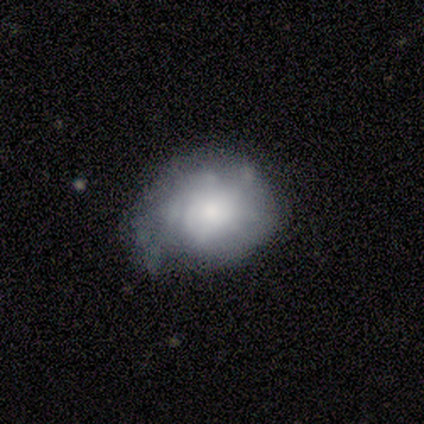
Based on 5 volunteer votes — Smooth or featured? featured or disk (80%)
Edge-on disk? no (100%)
Bar? no (100%)
Spiral arms? yes (50%, tied with no)
Spiral winding? tight (100%)
Spiral arm count? 2 (50%, tied with can't tell)
Bulge size? large (50%)
Merging? minor disturbance (80%)